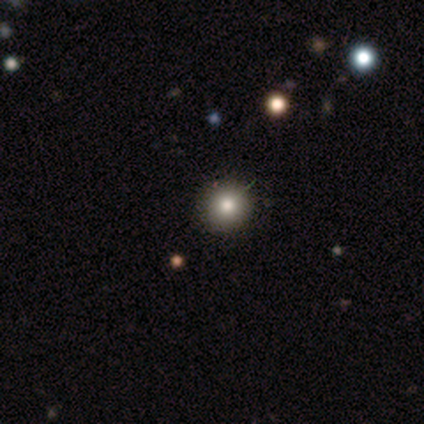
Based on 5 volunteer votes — This is clearly a smooth galaxy (80%). How rounded: clearly round (100%). Merging: clearly none (100%).